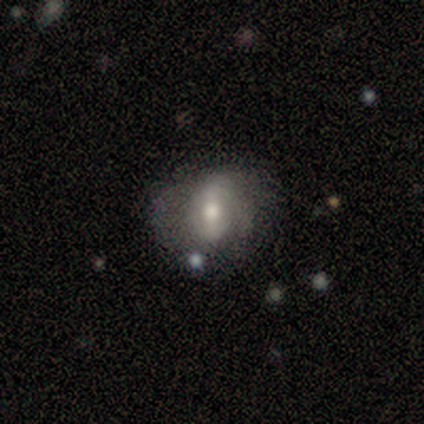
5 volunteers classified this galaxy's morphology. smooth_or_featured: featured or disk (p=1.00)
disk_edge_on: no (p=1.00)
bar: weak (p=0.60) [alt: strong p=0.40]
has_spiral_arms: yes (p=0.80) [alt: no p=0.20]
spiral_winding: medium (p=0.50) [alt: tight p=0.25]
spiral_arm_count: 2 (p=0.50) [alt: 3 p=0.25]
bulge_size: moderate (p=0.80) [alt: small p=0.20]
merging: none (p=0.40) [tied with: major disturbance p=0.40]